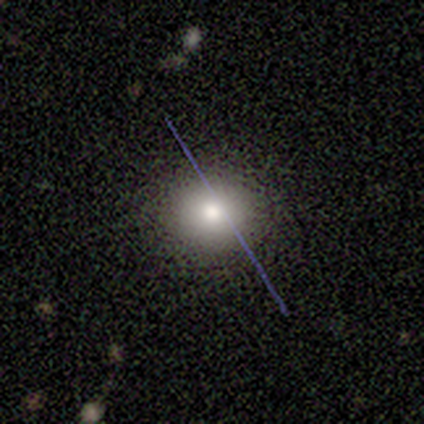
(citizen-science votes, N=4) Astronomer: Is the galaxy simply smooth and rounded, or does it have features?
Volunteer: smooth — 100%.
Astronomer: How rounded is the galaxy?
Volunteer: round — 100%.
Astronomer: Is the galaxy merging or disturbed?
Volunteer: none — 100%.